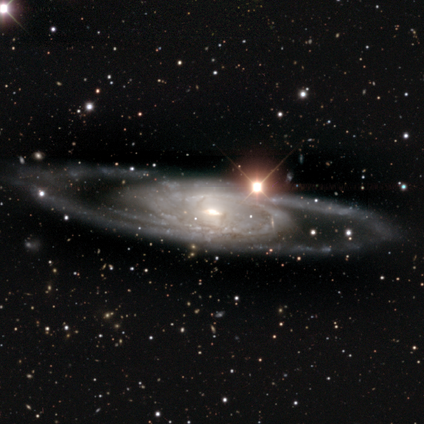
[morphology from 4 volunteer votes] Smooth or featured? 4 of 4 (100%) said featured or disk. Edge-on disk? 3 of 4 (75%) said no. Bar? 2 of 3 (67%) said no. Spiral arms? 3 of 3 (100%) said yes. Spiral winding? 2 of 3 (67%) said tight. Spiral arm count? 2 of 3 (67%) said 2. Bulge size? 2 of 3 (67%) said small. Merging? 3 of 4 (75%) said none.